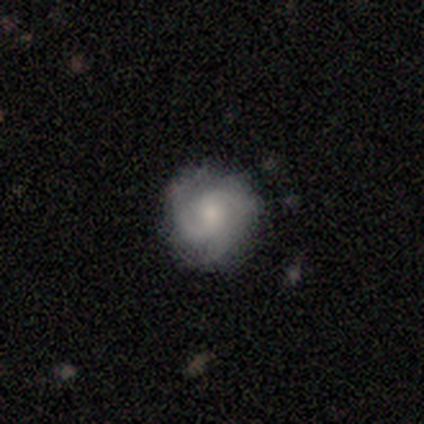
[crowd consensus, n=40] Q: Smooth or featured?
A: featured or disk (68%); runner-up: smooth (25%)
Q: Edge-on disk?
A: no (93%); runner-up: yes (7%)
Q: Bar?
A: no (64%); runner-up: weak (36%)
Q: Spiral arms?
A: yes (92%); runner-up: no (8%)
Q: Spiral winding?
A: medium (65%); runner-up: tight (35%)
Q: Spiral arm count?
A: 3 (52%); runner-up: 2 (30%)
Q: Bulge size?
A: small (56%); runner-up: moderate (32%)
Q: Merging?
A: none (65%); runner-up: minor disturbance (30%)